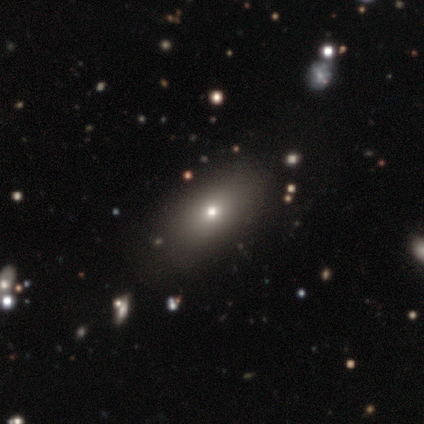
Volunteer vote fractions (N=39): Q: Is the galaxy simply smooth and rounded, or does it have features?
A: smooth — 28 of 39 (72%).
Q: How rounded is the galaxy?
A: in between — 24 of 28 (86%).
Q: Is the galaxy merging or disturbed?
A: none — 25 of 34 (74%).